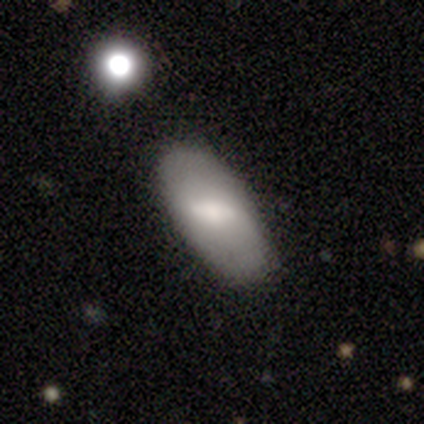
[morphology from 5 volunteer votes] A smooth galaxy with no disk features (80%) that is in between round and cigar-shaped (75%).

Vote fractions:
- Smooth or featured? smooth: 80% / featured or disk: 20% / star or artifact: 0%
- How rounded? in between: 75% / round: 25% / cigar-shaped: 0%
- Merging? none: 80% / minor disturbance: 20% / major disturbance: 0% / merger: 0%